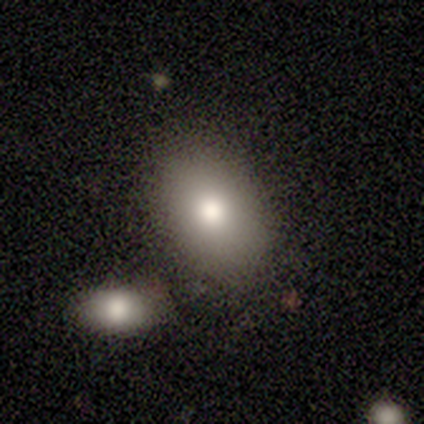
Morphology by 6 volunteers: Smooth or featured? smooth (100%)
How rounded? in between (100%)
Merging? none (100%)